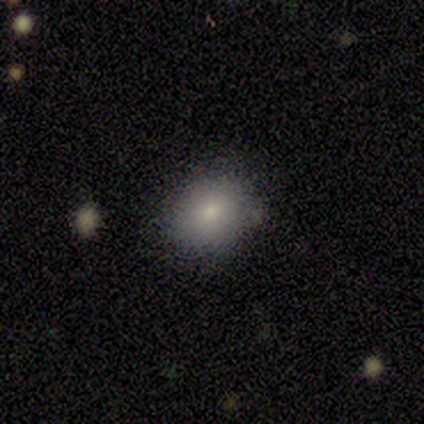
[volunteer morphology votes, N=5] Volunteers were most divided on "how rounded" (2-way tie): round: 50%, in between: 50%, cigar-shaped: 0%; "merging" (2-way tie): none: 50%, minor disturbance: 50%, major disturbance: 0%, merger: 0%. More confident: smooth or featured — smooth (80%).